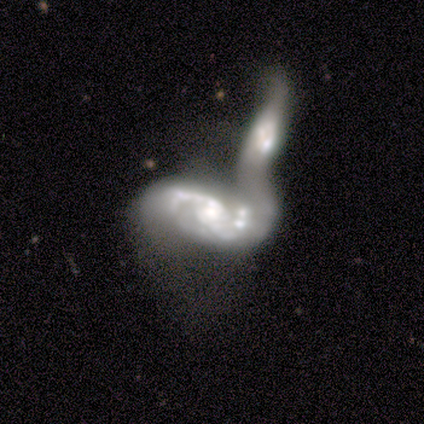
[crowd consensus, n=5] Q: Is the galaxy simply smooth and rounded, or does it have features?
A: featured or disk — 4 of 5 (80%).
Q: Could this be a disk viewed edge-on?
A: no — 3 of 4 (75%).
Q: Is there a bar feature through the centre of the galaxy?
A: weak — 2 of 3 (67%).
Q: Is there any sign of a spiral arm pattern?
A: yes — 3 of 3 (100%).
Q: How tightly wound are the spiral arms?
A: medium — 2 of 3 (67%).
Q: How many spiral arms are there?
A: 2 — 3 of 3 (100%).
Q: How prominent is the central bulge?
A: small — 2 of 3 (67%).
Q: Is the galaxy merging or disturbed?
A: merger — 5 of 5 (100%).